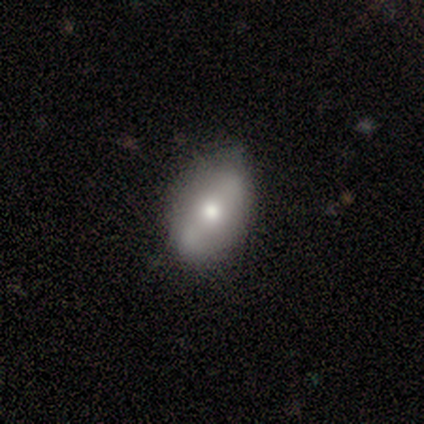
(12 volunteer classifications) Volunteers were most divided on "bar": no: 50%, strong: 33%, weak: 17%. More confident: bulge size — moderate (100%); spiral arms — no (83%); edge-on disk — no (75%); smooth or featured — featured or disk (67%); merging — none (64%).